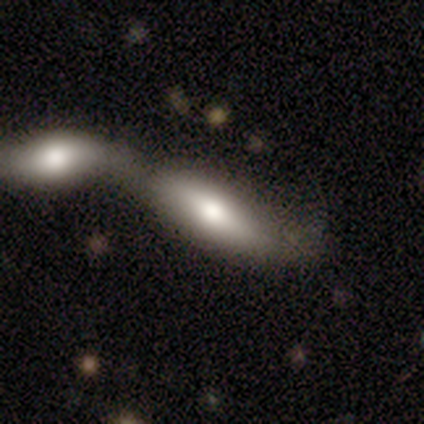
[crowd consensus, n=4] Morphology: type=featured or disk (75%); edge-on=no (67%); bar=no (100%); spiral arms=no (100%); bulge=moderate (100%); merging=merger (100%).